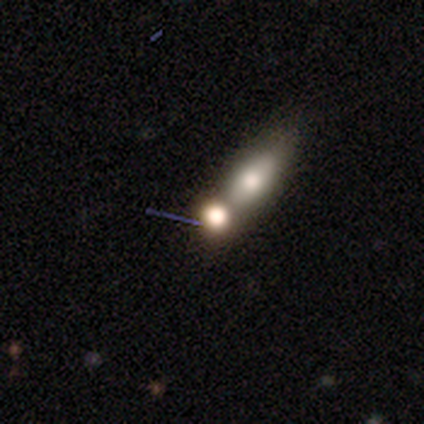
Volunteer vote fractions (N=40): Morphology: type=smooth (62%); roundness=round (56%); merging=merger (59%).